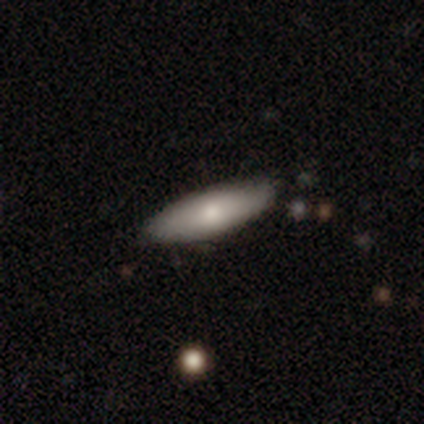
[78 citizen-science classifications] This appears to be a smooth galaxy with no disk features (72%) that is in between round and cigar-shaped (61%). Merging: none (41%).